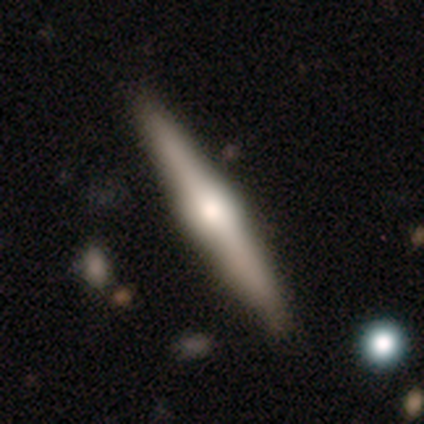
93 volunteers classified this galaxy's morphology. Volunteers were most divided on "smooth or featured": featured or disk: 74%, smooth: 19%, star or artifact: 6%. More confident: edge-on disk — yes (96%); edge-on bulge — rounded (94%); merging — none (89%).